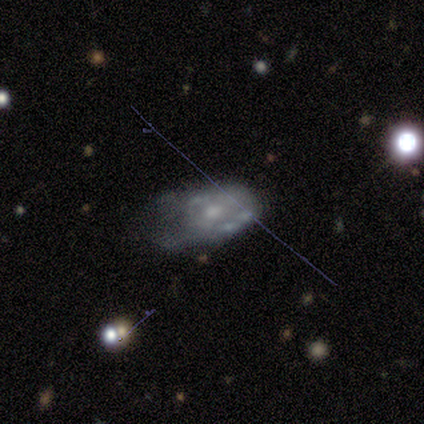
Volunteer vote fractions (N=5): A featured or disk galaxy (60%) with no bar (100%), no spiral arms (100%) and a moderate central bulge (33%, tied with small and none).

Vote fractions:
- Smooth or featured? featured or disk: 60% / smooth: 40% / star or artifact: 0%
- Edge-on disk? no: 100% / yes: 0%
- Bar? no: 100% / strong: 0% / weak: 0%
- Spiral arms? no: 100% / yes: 0%
- Bulge size? moderate: 33% (tied) / small: 33% (tied) / none: 33% (tied) / dominant: 0% / large: 0%
- Merging? minor disturbance: 60% / none: 20% / major disturbance: 20% / merger: 0%